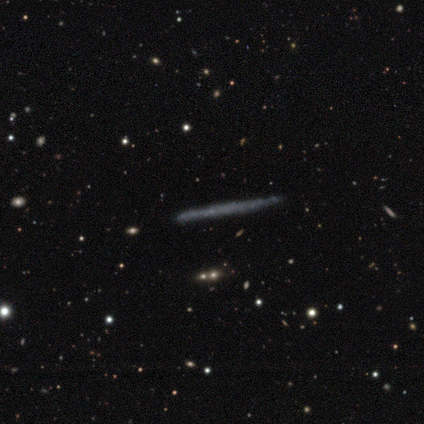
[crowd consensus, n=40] Smooth or featured?
  - featured or disk: 50% *
  - smooth: 42%
  - star or artifact: 8%
Edge-on disk?
  - yes: 90% *
  - no: 10%
Edge-on bulge?
  - none: 100% *
  - boxy: 0%
  - rounded: 0%
Merging?
  - none: 92% *
  - minor disturbance: 3%
  - major disturbance: 3%
  - merger: 3%